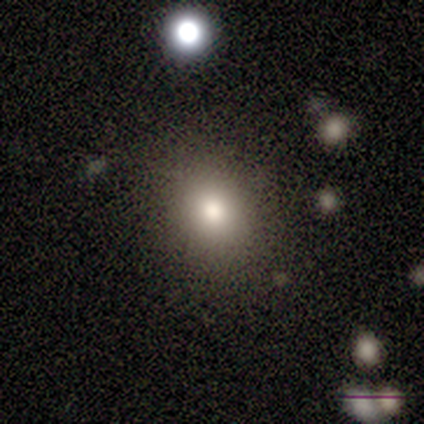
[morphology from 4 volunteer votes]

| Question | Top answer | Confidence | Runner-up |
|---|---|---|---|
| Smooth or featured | smooth | 50% | featured or disk (25%) |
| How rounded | round | 50% | tied: in between (50%) |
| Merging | none | 100% | — |